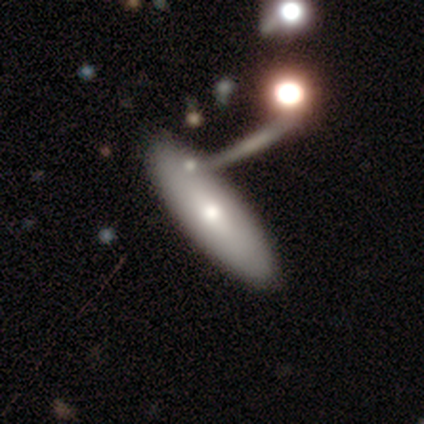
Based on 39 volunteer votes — A smooth galaxy with no disk features (64%) that is in between round and cigar-shaped (68%).

Vote fractions:
- Smooth or featured? smooth: 64% / featured or disk: 36% / star or artifact: 0%
- How rounded? in between: 68% / cigar-shaped: 32% / round: 0%
- Merging? none: 38% / merger: 18% / minor disturbance: 13% / major disturbance: 8%